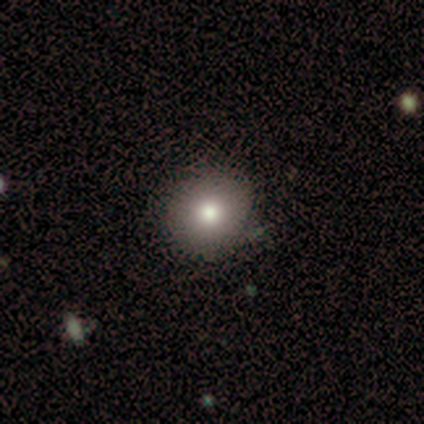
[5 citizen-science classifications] This is clearly a smooth galaxy (100%). How rounded: clearly round (80%). Merging: clearly none (100%).